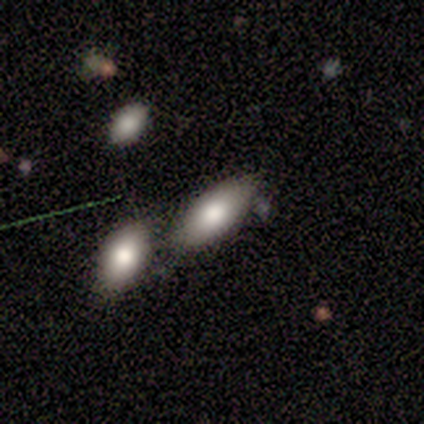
This appears to be a smooth galaxy with no disk features (100%) that is in between round and cigar-shaped (100%). Merging: none (60%).